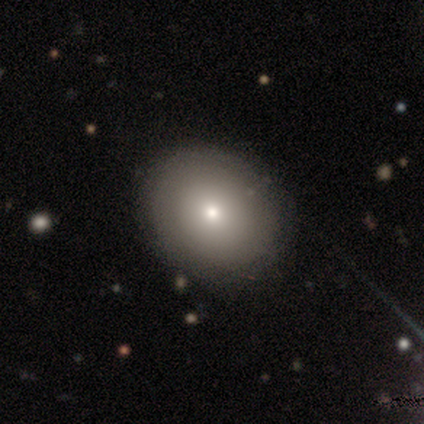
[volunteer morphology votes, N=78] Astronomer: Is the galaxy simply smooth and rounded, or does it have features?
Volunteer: smooth — 87%.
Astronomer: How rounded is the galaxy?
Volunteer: round — 69%.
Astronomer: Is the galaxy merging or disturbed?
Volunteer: none — 47%.